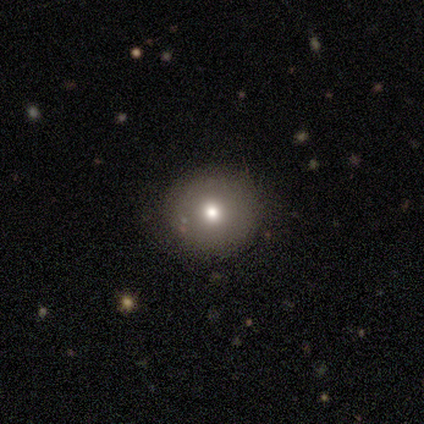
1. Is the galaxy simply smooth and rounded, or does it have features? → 60% smooth, 20% featured or disk, 20% star or artifact.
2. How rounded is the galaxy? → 83% round, 17% in between, 0% cigar-shaped.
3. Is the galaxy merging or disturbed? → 88% none, 12% minor disturbance, 0% major disturbance, 0% merger.